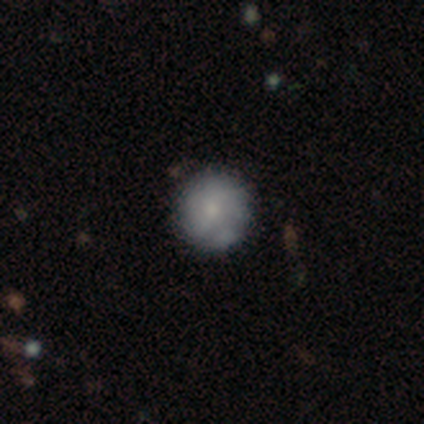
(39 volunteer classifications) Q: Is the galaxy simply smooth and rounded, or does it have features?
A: smooth — 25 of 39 (64%).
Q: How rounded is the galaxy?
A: round — 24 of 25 (96%).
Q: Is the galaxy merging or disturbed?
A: none — 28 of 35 (80%).